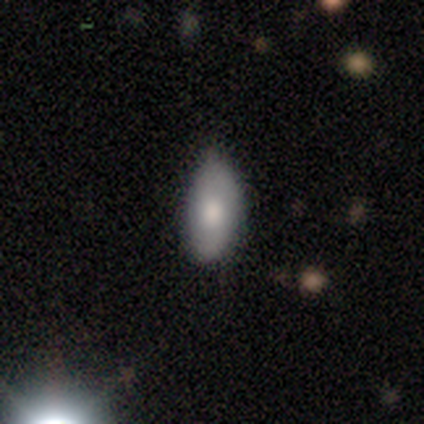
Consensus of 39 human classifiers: smooth_or_featured: smooth (p=0.79) [alt: star or artifact p=0.13]
how_rounded: in between (p=0.90) [alt: cigar-shaped p=0.10]
merging: minor disturbance (p=0.50) [alt: none p=0.47]